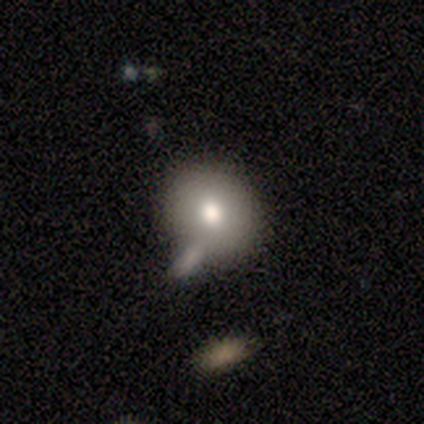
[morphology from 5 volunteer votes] A smooth galaxy with no disk features (80%) that is round (50%, tied with in between).

Vote fractions:
- Smooth or featured? smooth: 80% / featured or disk: 20% / star or artifact: 0%
- How rounded? round: 50% (tied) / in between: 50% (tied) / cigar-shaped: 0%
- Merging? none: 100% / minor disturbance: 0% / major disturbance: 0% / merger: 0%